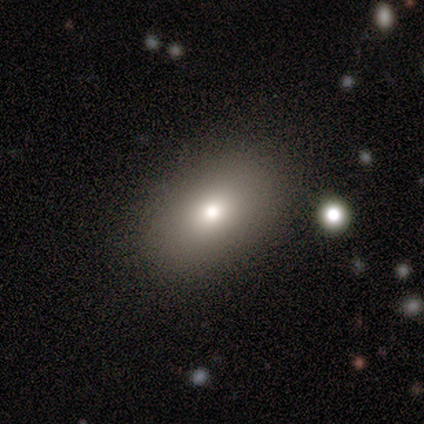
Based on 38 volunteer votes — Volunteers were most divided on "smooth or featured": smooth: 74%, featured or disk: 18%, star or artifact: 8%. More confident: how rounded — in between (89%); merging — none (80%).